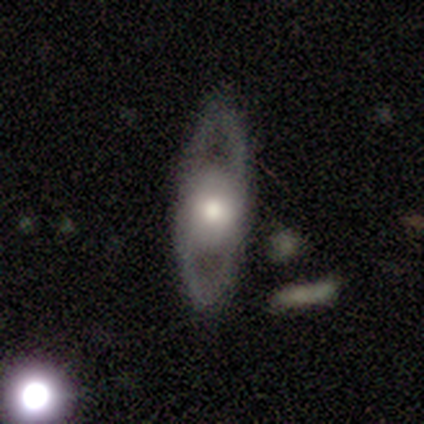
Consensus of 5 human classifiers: A featured or disk galaxy (80%) with no bar (100%), no spiral arms (67%) and a large central bulge (100%).

Vote fractions:
- Smooth or featured? featured or disk: 80% / smooth: 20% / star or artifact: 0%
- Edge-on disk? no: 75% / yes: 25%
- Bar? no: 100% / strong: 0% / weak: 0%
- Spiral arms? no: 67% / yes: 33%
- Bulge size? large: 100% / dominant: 0% / moderate: 0% / small: 0% / none: 0%
- Merging? none: 100% / minor disturbance: 0% / major disturbance: 0% / merger: 0%